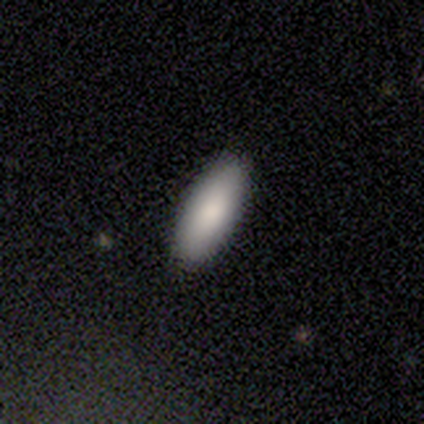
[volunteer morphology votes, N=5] Smooth or featured? 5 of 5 (100%) said smooth. How rounded? 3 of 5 (60%) said in between. Merging? 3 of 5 (60%) said none.